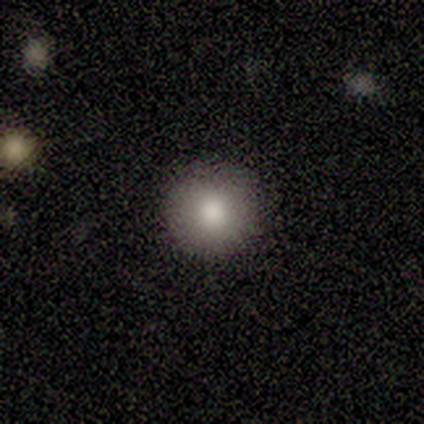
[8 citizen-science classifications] smooth 88%, featured or disk 12%, star or artifact 0%. Down the decision tree: how rounded — round (100%); merging — none (88%).